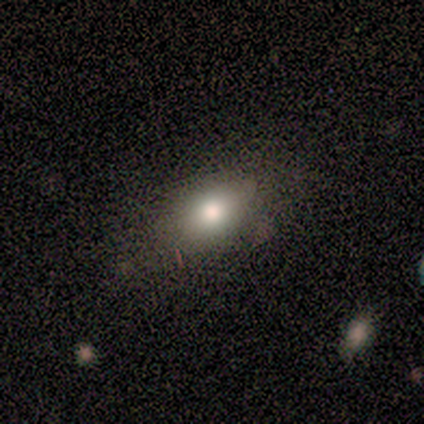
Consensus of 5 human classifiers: Smooth or featured? smooth (80%)
How rounded? in between (75%)
Merging? none (80%)